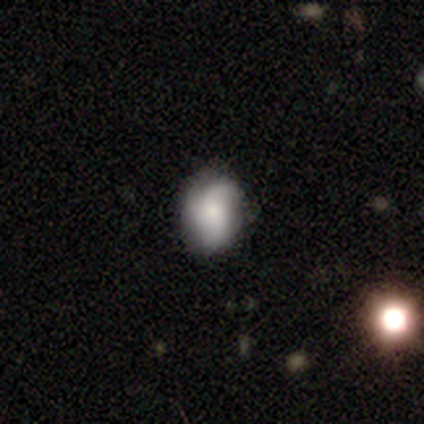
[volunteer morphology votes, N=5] Smooth or featured? 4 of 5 (80%) said featured or disk. Edge-on disk? 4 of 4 (100%) said no. Bar? 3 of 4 (75%) said no. Spiral arms? 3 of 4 (75%) said yes. Spiral winding? 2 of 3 (67%) said medium. Spiral arm count? 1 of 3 (33%, tied with 3 and can't tell) said 2. Bulge size? 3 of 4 (75%) said small. Merging? 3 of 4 (75%) said none.